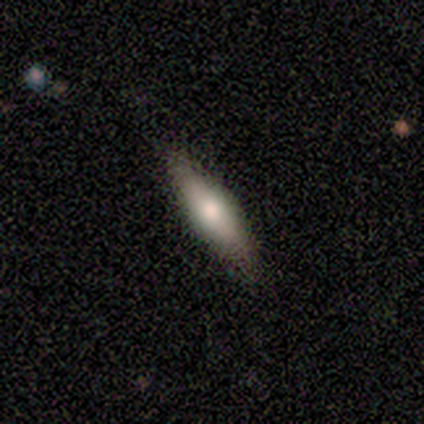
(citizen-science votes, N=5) smooth_or_featured: smooth (p=0.80) [alt: featured or disk p=0.20]
how_rounded: cigar-shaped (p=0.75) [alt: in between p=0.25]
merging: none (p=0.60) [alt: minor disturbance p=0.40]